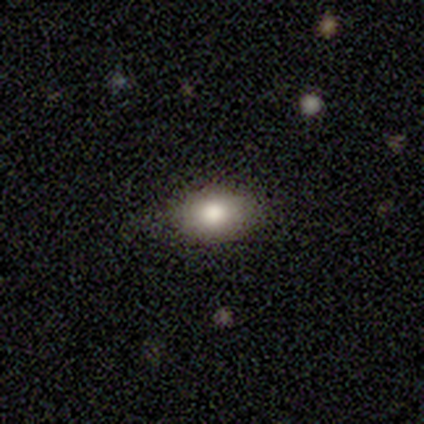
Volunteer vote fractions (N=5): Morphology: type=smooth (100%); roundness=in between (60%); merging=none (100%).